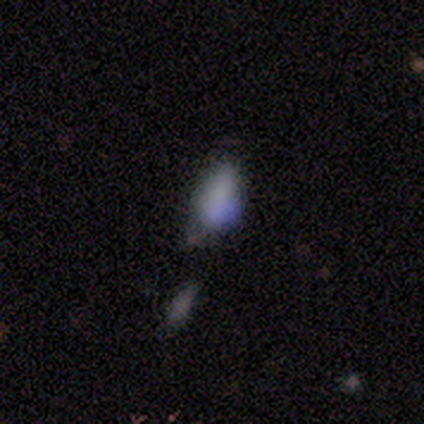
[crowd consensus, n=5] A smooth galaxy with no disk features (40%, tied with featured or disk) that is in between round and cigar-shaped (100%). Merging: merger (50%).